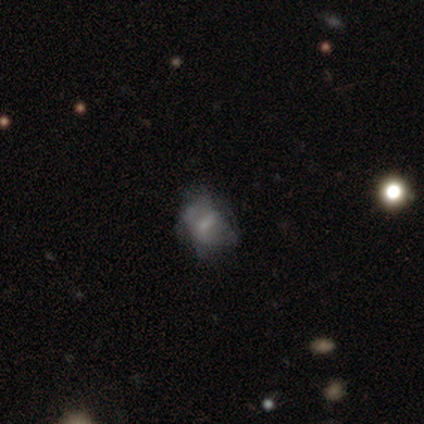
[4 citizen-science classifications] Volunteers were most divided on "merging" (4-way tie): none: 25%, minor disturbance: 25%, major disturbance: 25%, merger: 25%. More confident: edge-on disk — no (100%); smooth or featured — featured or disk (75%); bar — no (67%); spiral arms — no (67%); bulge size — small (67%).